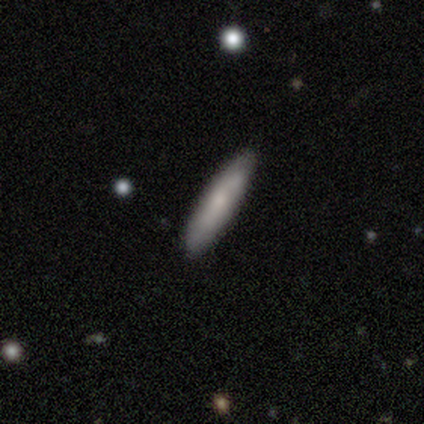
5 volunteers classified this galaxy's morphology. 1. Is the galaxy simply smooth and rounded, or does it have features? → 80% smooth, 20% featured or disk, 0% star or artifact.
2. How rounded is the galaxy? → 100% cigar-shaped, 0% round, 0% in between.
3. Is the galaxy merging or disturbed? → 100% none, 0% minor disturbance, 0% major disturbance, 0% merger.